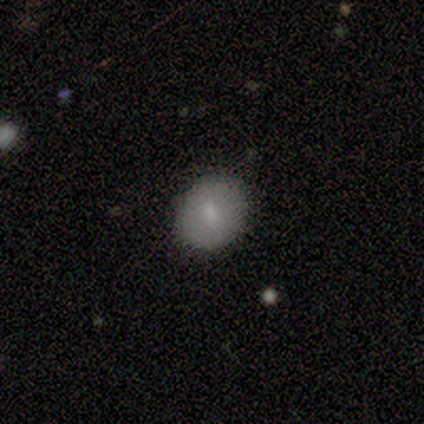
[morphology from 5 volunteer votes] type=smooth (100%); roundness=round (80%); merging=none (100%).